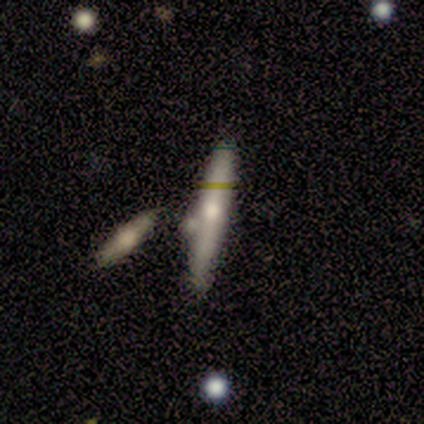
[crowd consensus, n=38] Overall: featured or disk (61%; smooth 29%). Edge-on disk: yes (100%). Edge-on bulge: rounded (83%). Merging: none (74%).